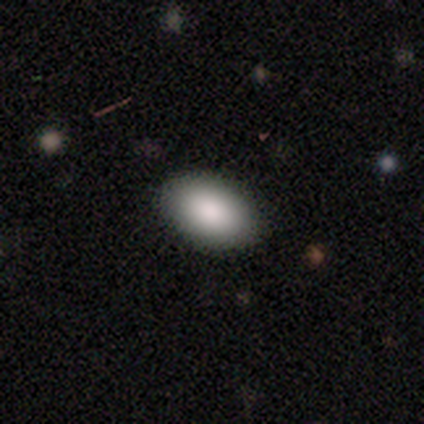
Q: Smooth or featured?
A: smooth (100%)
Q: How rounded?
A: in between (100%)
Q: Merging?
A: none (100%)